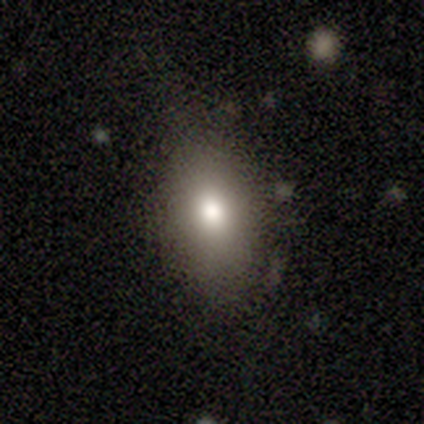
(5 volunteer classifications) Volunteers were most divided on "merging": none: 80%, minor disturbance: 20%, major disturbance: 0%, merger: 0%. More confident: smooth or featured — smooth (100%); how rounded — in between (100%).